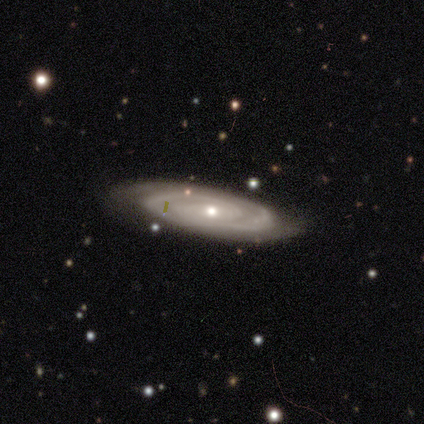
featured or disk 97%, star or artifact 3%, smooth 0%. Down the decision tree: edge-on disk — no (82%); bar — weak (52%); spiral arms — yes (97%); spiral arm count — 2 (80%); spiral winding — tight (73%); bulge size — small (68%); merging — none (82%).